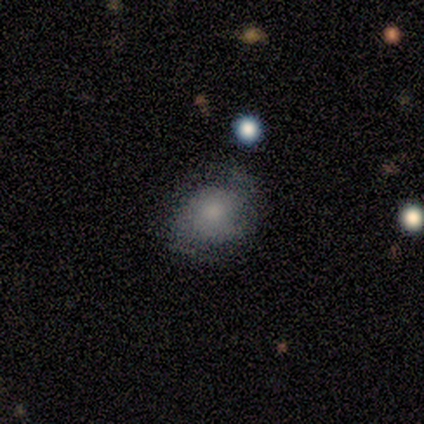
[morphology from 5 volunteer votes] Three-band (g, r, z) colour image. It shows a smooth galaxy with no disk features (80%) that is in between round and cigar-shaped (100%). Merging: none (80%).